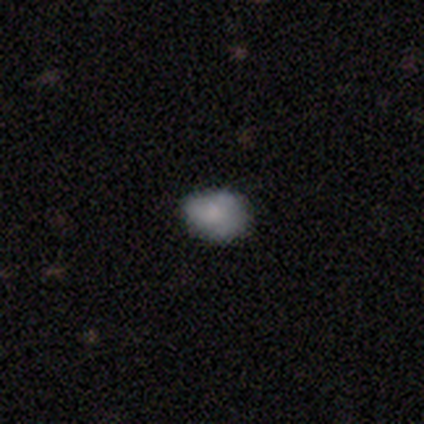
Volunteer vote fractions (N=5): Q: Smooth or featured?
A: smooth (80%); runner-up: featured or disk (20%)
Q: How rounded?
A: in between (100%)
Q: Merging?
A: none (40%); tied with: minor disturbance (40%)